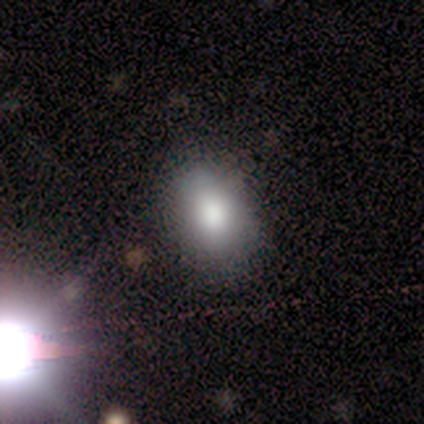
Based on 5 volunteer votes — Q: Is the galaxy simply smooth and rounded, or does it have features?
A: smooth — 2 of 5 (40%, tied with star or artifact).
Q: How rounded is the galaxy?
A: in between — 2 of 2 (100%).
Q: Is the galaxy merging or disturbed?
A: none — 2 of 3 (67%).